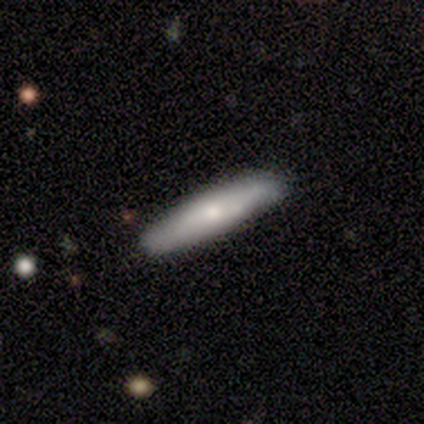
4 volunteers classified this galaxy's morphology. This appears to be a smooth galaxy with no disk features (100%) that is cigar-shaped (75%). Merging: none (100%).